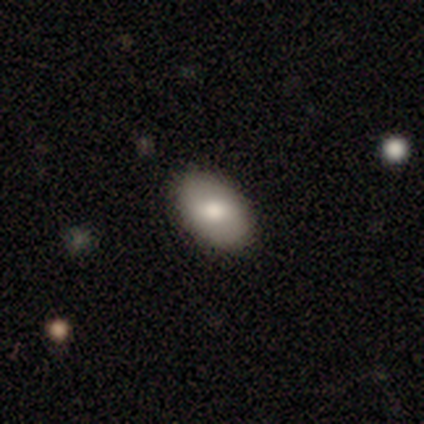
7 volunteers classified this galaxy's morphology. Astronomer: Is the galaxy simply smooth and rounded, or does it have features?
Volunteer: smooth — 86%.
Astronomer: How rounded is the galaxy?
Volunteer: in between — 100%.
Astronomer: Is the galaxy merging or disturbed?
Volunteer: none — 100%.